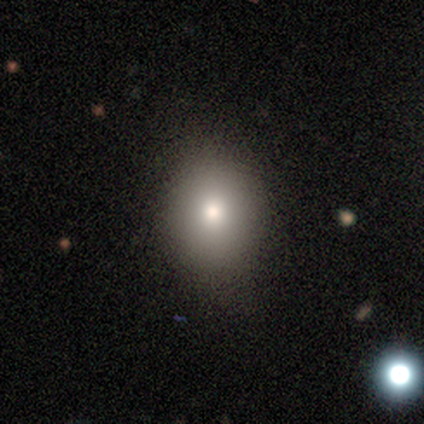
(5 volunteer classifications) Overall: smooth (100%). How rounded: round (80%). Merging: none (100%).